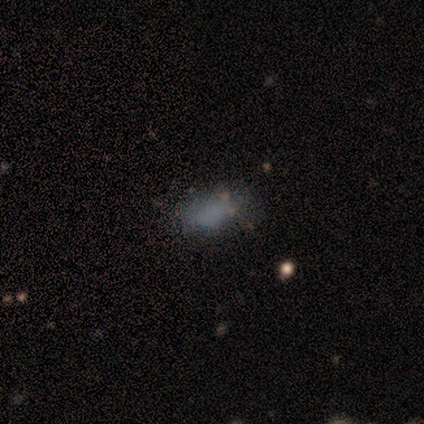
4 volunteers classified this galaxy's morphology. smooth_or_featured: smooth (p=0.75) [alt: star or artifact p=0.25]
how_rounded: in between (p=1.00)
merging: none (p=0.67) [alt: minor disturbance p=0.33]